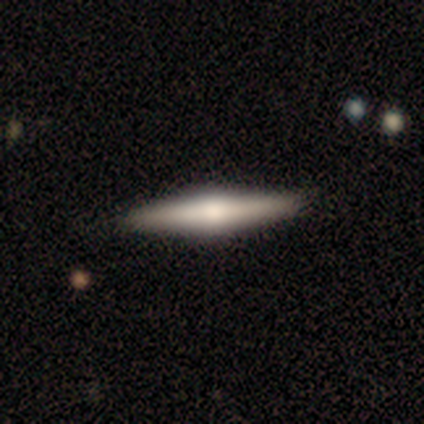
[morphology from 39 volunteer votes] A featured or disk galaxy (64%) viewed edge-on (100%) with a rounded central bulge (84%). Merging: none (89%).